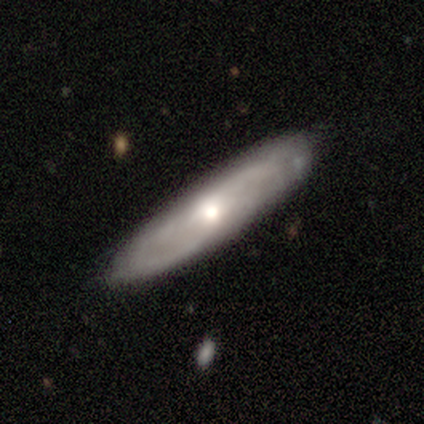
Smooth or featured: featured or disk — 65% (smooth — 31%)
Edge-on disk: no — 79% (yes — 21%)
Bar: no — 81% (weak — 11%)
Spiral arms: yes — 89% (no — 11%)
Spiral winding: medium — 42% (loose — 33%)
Spiral arm count: can't tell — 58% (2 — 29%)
Bulge size: moderate — 63% (large — 30%)
Merging: none — 80% (minor disturbance — 16%)